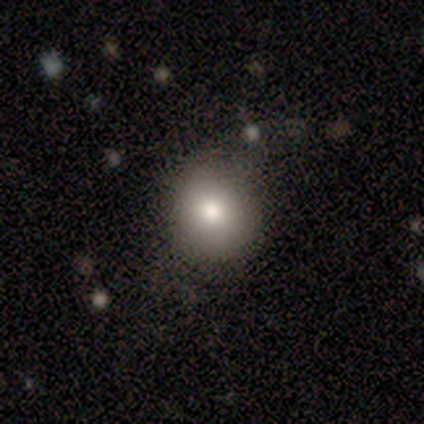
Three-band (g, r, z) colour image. It shows a smooth galaxy with no disk features (83%) that is round (80%). Merging: none (80%).